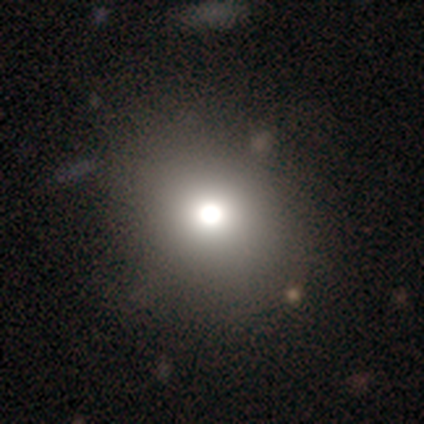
This is likely a smooth galaxy (72%). How rounded: clearly round (83%). Merging: marginally none (35%).